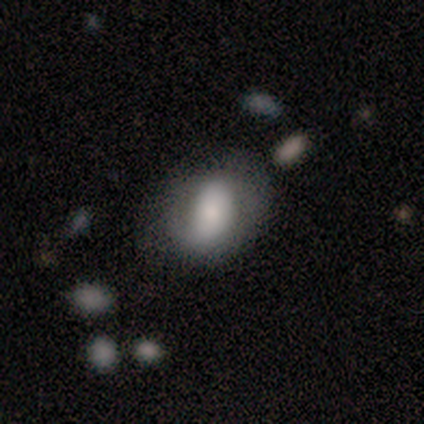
Smooth or featured: smooth — 50% (tied with featured or disk — 50%)
How rounded: round — 50% (tied with in between — 50%)
Merging: none — 75% (major disturbance — 25%)